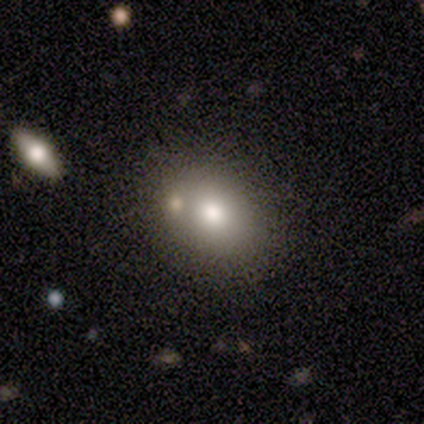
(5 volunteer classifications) A smooth galaxy with no disk features (60%) that is in between round and cigar-shaped (100%).

Vote fractions:
- Smooth or featured? smooth: 60% / featured or disk: 20% / star or artifact: 20%
- How rounded? in between: 100% / round: 0% / cigar-shaped: 0%
- Merging? none: 100% / minor disturbance: 0% / major disturbance: 0% / merger: 0%